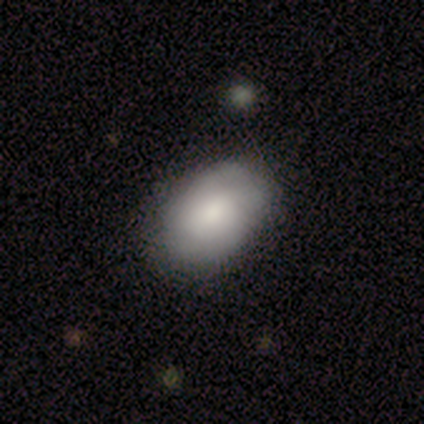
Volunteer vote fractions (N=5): Volunteers were most divided on "merging": none: 60%, minor disturbance: 40%, major disturbance: 0%, merger: 0%. More confident: how rounded — in between (100%); smooth or featured — smooth (80%).